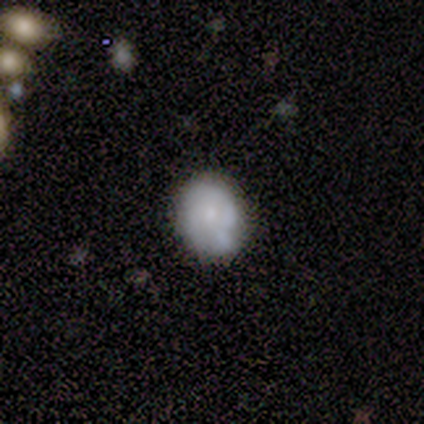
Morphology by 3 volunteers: Overall: featured or disk (67%; smooth 33%). Edge-on disk: no (100%). Bar: no (100%). Spiral arms: no (100%). Bulge size: small (100%). Merging: none (67%; merger 33%).